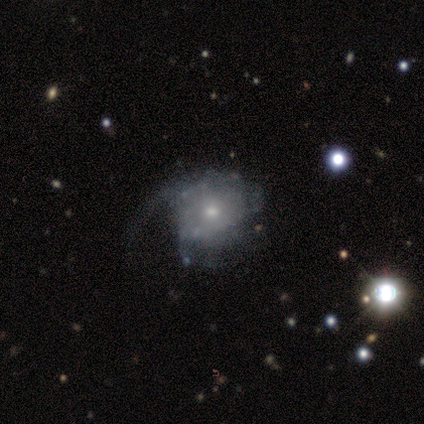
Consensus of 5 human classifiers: featured or disk 60%, star or artifact 40%, smooth 0%. Down the decision tree: edge-on disk — no (100%); bar — no (100%); spiral arms — yes (67%); spiral arm count — 1 (50%, tied with can't tell); spiral winding — loose (100%); bulge size — moderate (100%); merging — none (67%).